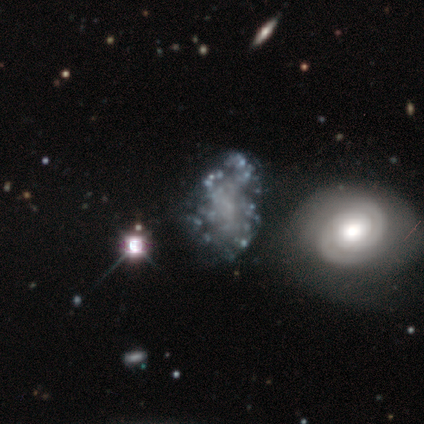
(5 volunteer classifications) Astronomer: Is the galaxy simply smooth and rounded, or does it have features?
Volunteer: featured or disk — 100%.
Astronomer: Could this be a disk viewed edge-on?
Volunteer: no — 100%.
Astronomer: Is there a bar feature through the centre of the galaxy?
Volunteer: no — 100%.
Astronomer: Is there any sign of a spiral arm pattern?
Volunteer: no — 80%.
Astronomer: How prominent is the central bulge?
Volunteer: none — 80%.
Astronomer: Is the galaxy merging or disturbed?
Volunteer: major disturbance — 60% (runner-up: none, 40%).